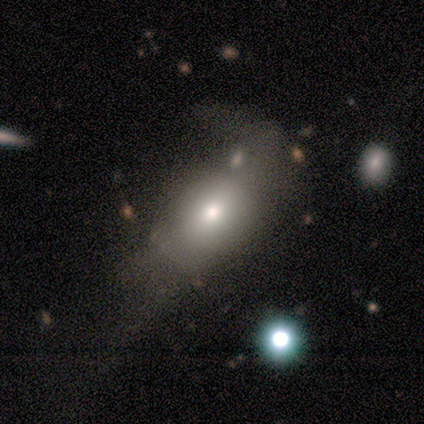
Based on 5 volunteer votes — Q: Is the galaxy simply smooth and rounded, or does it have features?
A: smooth — 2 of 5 (40%, tied with featured or disk).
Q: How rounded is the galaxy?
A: round — 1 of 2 (50%, tied with in between).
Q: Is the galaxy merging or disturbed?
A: major disturbance — 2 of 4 (50%, tied with merger).